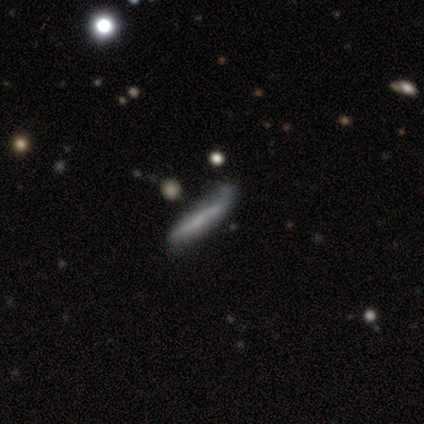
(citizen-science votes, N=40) Q: Smooth or featured?
A: featured or disk (57%); runner-up: smooth (40%)
Q: Edge-on disk?
A: yes (65%); runner-up: no (35%)
Q: Edge-on bulge?
A: none (73%); runner-up: rounded (27%)
Q: Merging?
A: minor disturbance (41%); runner-up: none (23%)